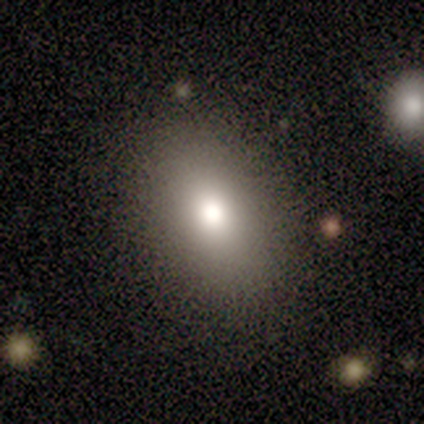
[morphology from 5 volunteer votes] A smooth galaxy with no disk features (100%) that is in between round and cigar-shaped (80%).

Vote fractions:
- Smooth or featured? smooth: 100% / featured or disk: 0% / star or artifact: 0%
- How rounded? in between: 80% / round: 20% / cigar-shaped: 0%
- Merging? none: 80% / minor disturbance: 20% / major disturbance: 0% / merger: 0%